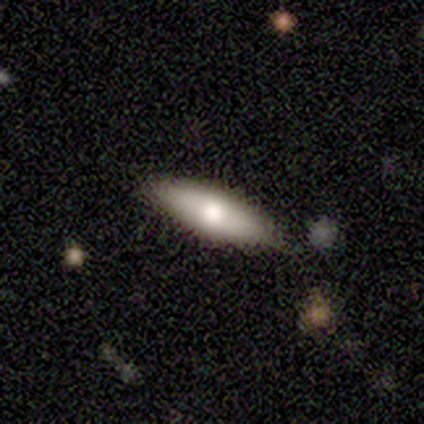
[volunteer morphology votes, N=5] Smooth or featured?
  - smooth: 80% *
  - star or artifact: 20%
  - featured or disk: 0%
How rounded?
  - in between: 50% * (tied)
  - cigar-shaped: 50% * (tied)
  - round: 0%
Merging?
  - none: 50% * (tied)
  - minor disturbance: 50% * (tied)
  - major disturbance: 0%
  - merger: 0%